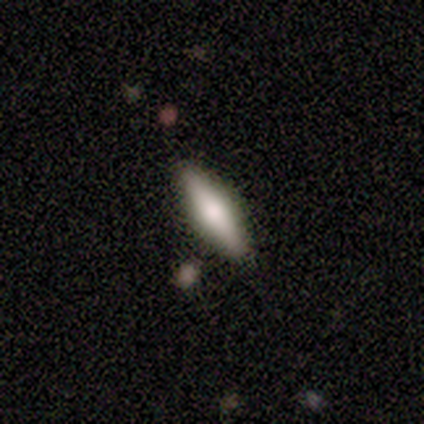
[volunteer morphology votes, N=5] Overall: smooth (60%; featured or disk 40%). How rounded: cigar-shaped (100%). Merging: none (80%).